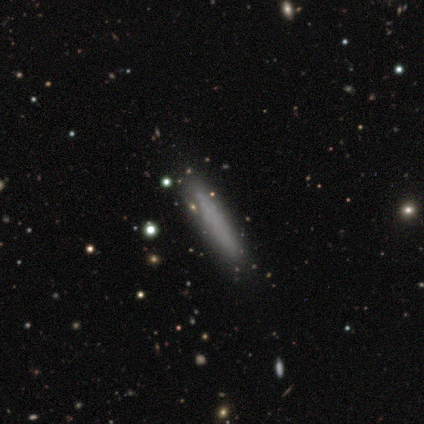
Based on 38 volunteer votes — Smooth or featured? 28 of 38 (74%) said smooth. How rounded? 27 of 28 (96%) said cigar-shaped. Merging? 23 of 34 (68%) said none.